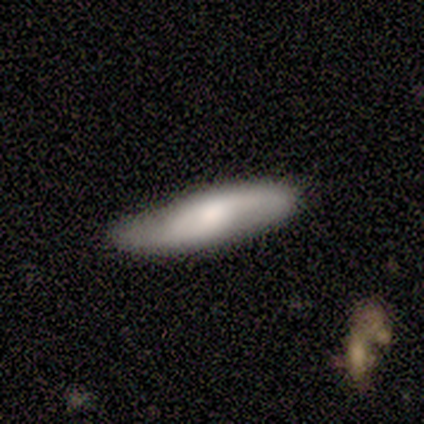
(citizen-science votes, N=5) featured or disk 60%, smooth 20%, star or artifact 20%. Down the decision tree: edge-on disk — no (67%); bar — weak (50%, tied with no); spiral arms — yes (100%); spiral arm count — 2 (100%); spiral winding — loose (100%); bulge size — large (50%, tied with moderate); merging — none (50%, tied with minor disturbance).